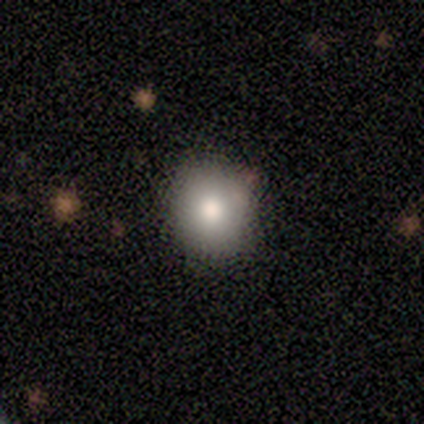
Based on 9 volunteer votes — Smooth or featured? smooth (100%)
How rounded? round (78%)
Merging? none (89%)